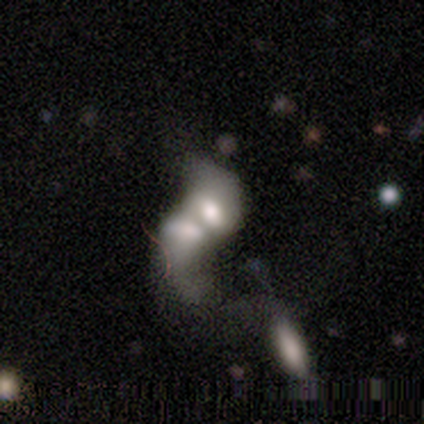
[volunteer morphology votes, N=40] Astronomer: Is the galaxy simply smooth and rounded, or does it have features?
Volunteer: featured or disk — 50% (runner-up: smooth, 48%).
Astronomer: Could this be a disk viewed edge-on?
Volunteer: no — 100%.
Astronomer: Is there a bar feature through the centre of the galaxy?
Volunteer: no — 65%.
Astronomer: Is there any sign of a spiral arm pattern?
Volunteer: no — 70%.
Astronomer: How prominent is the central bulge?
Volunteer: moderate — 45%.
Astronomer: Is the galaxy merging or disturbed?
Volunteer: merger — 85%.